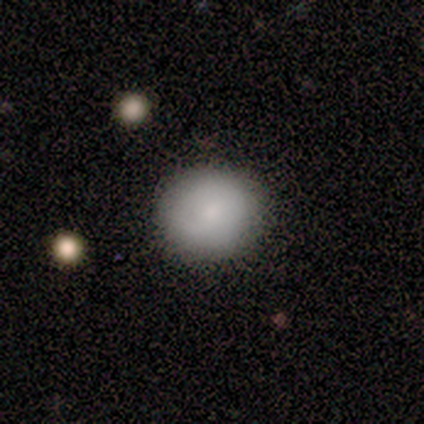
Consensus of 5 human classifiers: smooth-or-featured: smooth: 80% | featured or disk: 20% | star or artifact: 0%
  how-rounded: round: 100% | in between: 0% | cigar-shaped: 0%
  merging: none: 80% | minor disturbance: 20% | major disturbance: 0% | merger: 0%